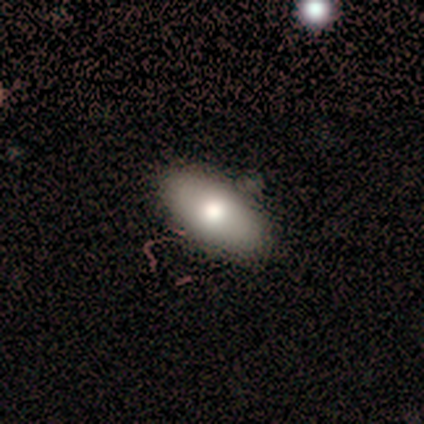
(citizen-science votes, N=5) Smooth or featured: smooth — 100%
How rounded: in between — 100%
Merging: none — 100%